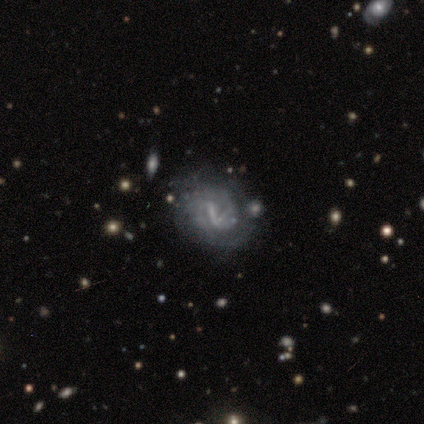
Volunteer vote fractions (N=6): Smooth or featured: featured or disk — 83% (smooth — 17%)
Edge-on disk: no — 100%
Bar: strong — 60% (weak — 40%)
Spiral arms: yes — 100%
Spiral winding: medium — 60% (tight — 20%)
Spiral arm count: can't tell — 80% (2 — 20%)
Bulge size: none — 80% (small — 20%)
Merging: major disturbance — 33% (tied with merger — 33%)